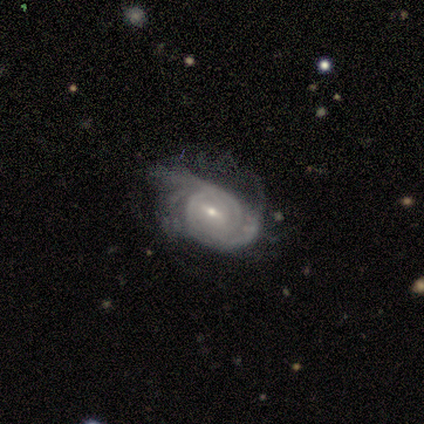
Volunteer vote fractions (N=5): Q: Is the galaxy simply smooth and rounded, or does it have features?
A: featured or disk — 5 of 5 (100%).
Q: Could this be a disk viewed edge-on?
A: no — 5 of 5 (100%).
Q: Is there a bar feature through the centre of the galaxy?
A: weak — 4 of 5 (80%).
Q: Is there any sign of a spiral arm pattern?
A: yes — 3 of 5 (60%).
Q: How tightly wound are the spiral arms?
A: tight — 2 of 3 (67%).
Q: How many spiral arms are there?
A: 2 — 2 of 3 (67%).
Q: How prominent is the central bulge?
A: small — 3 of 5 (60%).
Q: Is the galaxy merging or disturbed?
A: minor disturbance — 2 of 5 (40%, tied with major disturbance).